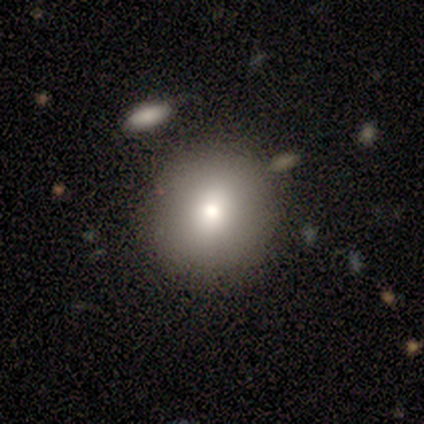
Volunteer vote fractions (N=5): Smooth or featured: smooth — 100%
How rounded: round — 80% (in between — 20%)
Merging: none — 100%